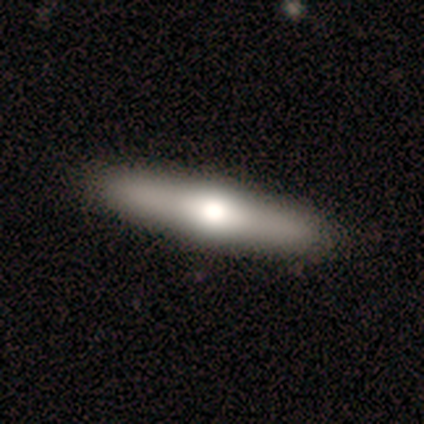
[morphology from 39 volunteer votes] This appears to be a smooth galaxy with no disk features (51%) that is cigar-shaped (85%). Merging: none (53%).